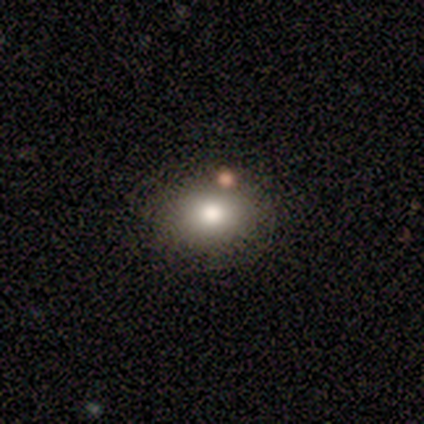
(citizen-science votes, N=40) This is clearly a smooth galaxy (88%). How rounded: possibly in between (51%). Merging: clearly none (86%).